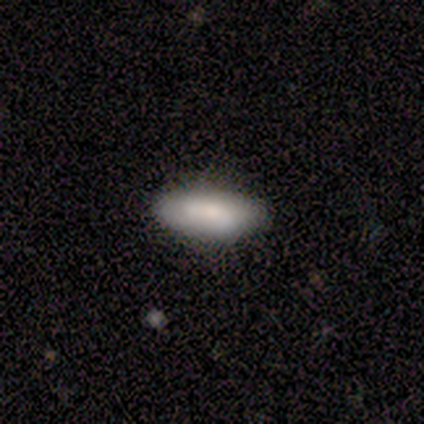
Smooth or featured: smooth — 80% (featured or disk — 20%)
How rounded: in between — 75% (cigar-shaped — 25%)
Merging: none — 60% (minor disturbance — 20%)